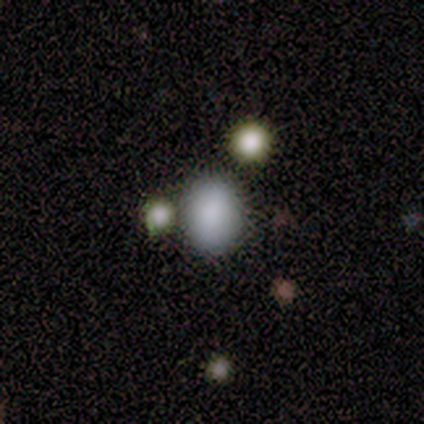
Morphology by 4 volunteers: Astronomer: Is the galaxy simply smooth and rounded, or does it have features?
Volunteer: smooth — 75%.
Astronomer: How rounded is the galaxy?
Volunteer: in between — 100%.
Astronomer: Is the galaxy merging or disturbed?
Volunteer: none — 100%.